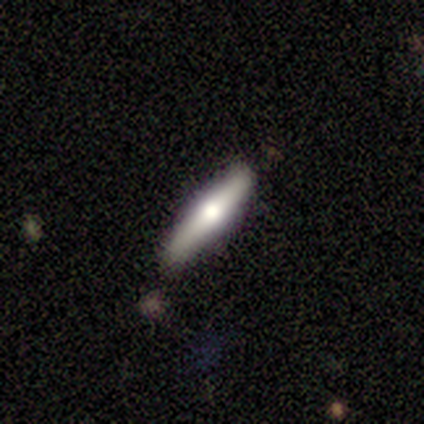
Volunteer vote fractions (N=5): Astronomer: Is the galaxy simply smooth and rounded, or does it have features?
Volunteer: smooth — 80%.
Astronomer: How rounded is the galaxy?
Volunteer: cigar-shaped — 100%.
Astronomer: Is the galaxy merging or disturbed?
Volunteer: none — 80%.